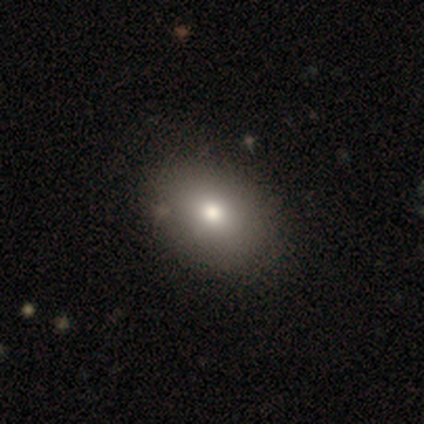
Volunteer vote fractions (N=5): Overall: smooth (40%, tied with featured or disk). How rounded: round (100%). Merging: none (100%).